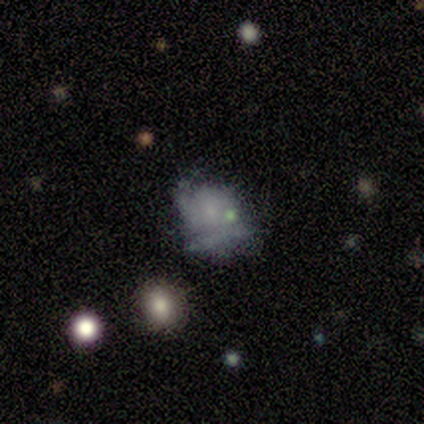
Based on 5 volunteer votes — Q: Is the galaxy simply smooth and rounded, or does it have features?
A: smooth — 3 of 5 (60%).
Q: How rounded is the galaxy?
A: round — 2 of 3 (67%).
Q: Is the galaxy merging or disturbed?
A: none — 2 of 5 (40%, tied with minor disturbance).